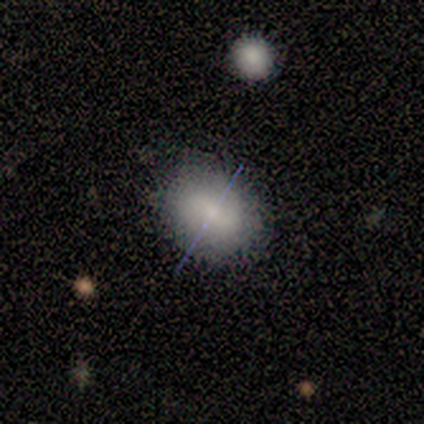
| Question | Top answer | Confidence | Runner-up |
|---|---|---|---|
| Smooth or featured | smooth | 57% | featured or disk (43%) |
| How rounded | round | 50% | tied: in between (50%) |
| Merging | none | 57% | minor disturbance (43%) |